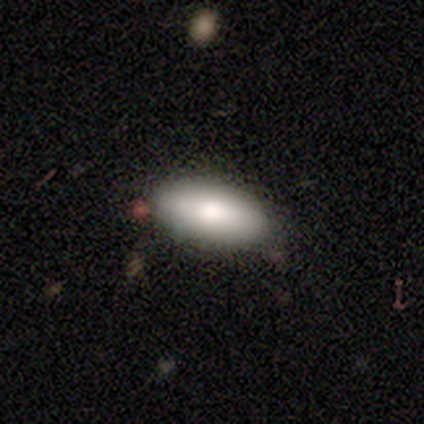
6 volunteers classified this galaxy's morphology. smooth_or_featured: smooth (p=0.67) [alt: featured or disk p=0.33]
how_rounded: in between (p=1.00)
merging: none (p=1.00)